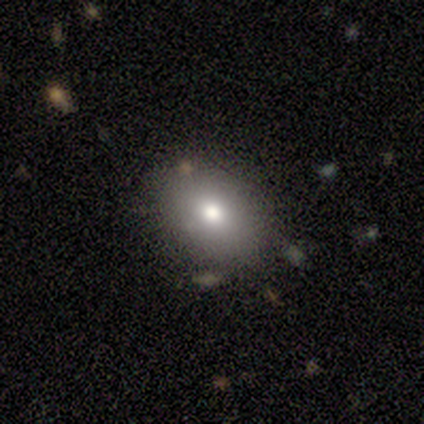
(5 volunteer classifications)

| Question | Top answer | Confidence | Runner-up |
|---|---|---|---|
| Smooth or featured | smooth | 80% | featured or disk (20%) |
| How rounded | in between | 75% | round (25%) |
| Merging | none | 40% | tied: minor disturbance (40%) |